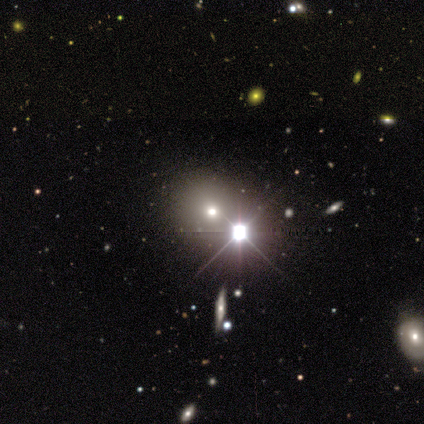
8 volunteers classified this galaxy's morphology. Volunteers were most divided on "smooth or featured": smooth: 62%, star or artifact: 38%, featured or disk: 0%. More confident: how rounded — round (80%); merging — none (80%).